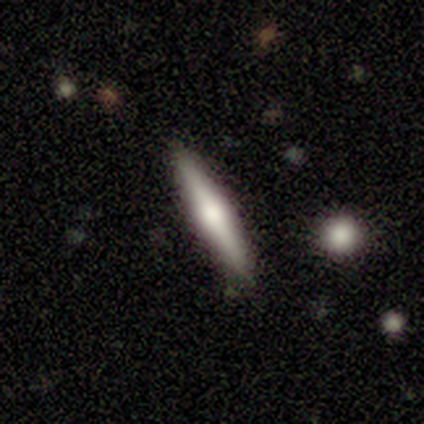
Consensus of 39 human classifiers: Smooth or featured?
  - featured or disk: 64% *
  - smooth: 33%
  - star or artifact: 3%
Edge-on disk?
  - yes: 100% *
  - no: 0%
Edge-on bulge?
  - rounded: 84% *
  - boxy: 12%
  - none: 4%
Merging?
  - none: 95% *
  - minor disturbance: 5%
  - major disturbance: 0%
  - merger: 0%